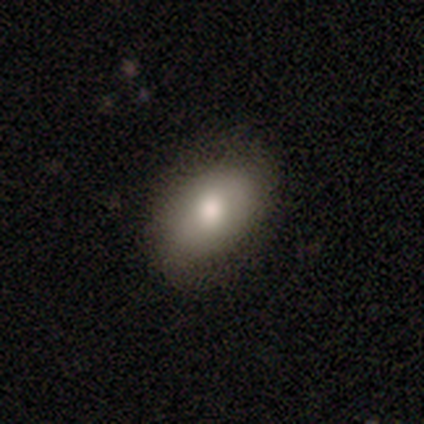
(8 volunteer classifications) Morphology: type=smooth (75%); roundness=in between (100%); merging=none (71%).